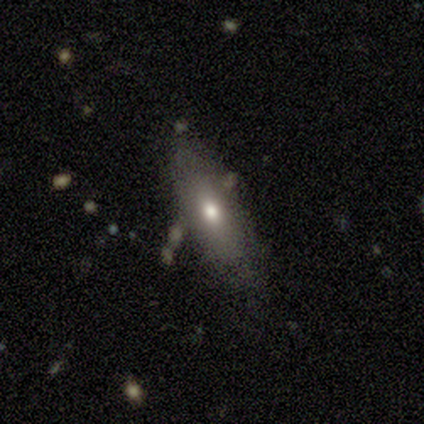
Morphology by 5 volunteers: Overall: smooth (60%; featured or disk 20%). How rounded: cigar-shaped (67%; in between 33%). Merging: none (75%).